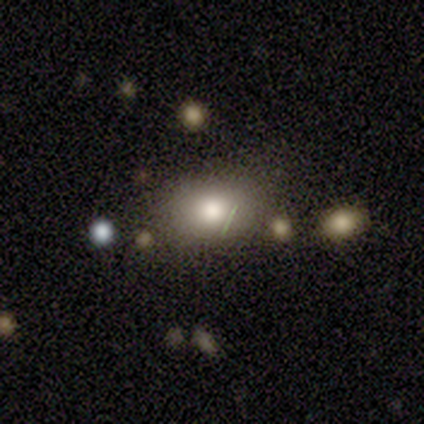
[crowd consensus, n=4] smooth_or_featured: smooth (p=0.75) [alt: star or artifact p=0.25]
how_rounded: round (p=0.67) [alt: in between p=0.33]
merging: none (p=1.00)